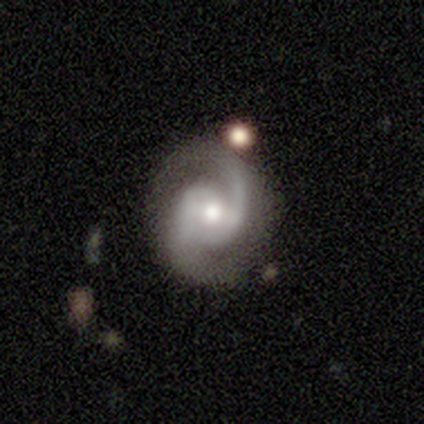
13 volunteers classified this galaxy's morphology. smooth_or_featured: featured or disk (p=1.00)
disk_edge_on: no (p=1.00)
bar: no (p=0.54) [alt: weak p=0.46]
has_spiral_arms: yes (p=0.92) [alt: no p=0.08]
spiral_winding: medium (p=0.58) [alt: tight p=0.25]
spiral_arm_count: 2 (p=0.92) [alt: 1 p=0.08]
bulge_size: moderate (p=0.69) [alt: small p=0.23]
merging: none (p=0.69) [alt: minor disturbance p=0.15]